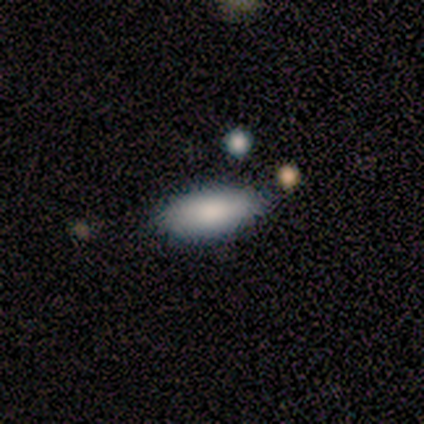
A smooth galaxy with no disk features (100%) that is in between round and cigar-shaped (100%).

Vote fractions:
- Smooth or featured? smooth: 100% / featured or disk: 0% / star or artifact: 0%
- How rounded? in between: 100% / round: 0% / cigar-shaped: 0%
- Merging? none: 80% / minor disturbance: 20% / major disturbance: 0% / merger: 0%